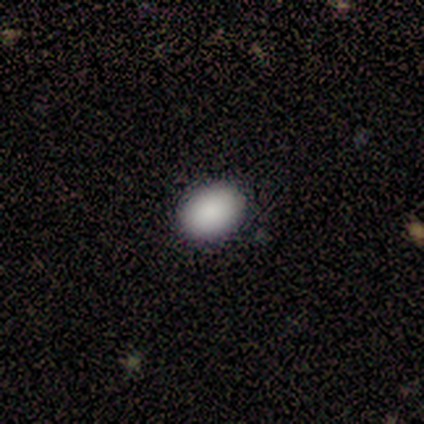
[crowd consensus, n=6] Consensus on every question: smooth or featured — smooth (100%); how rounded — in between (100%); merging — none (100%).